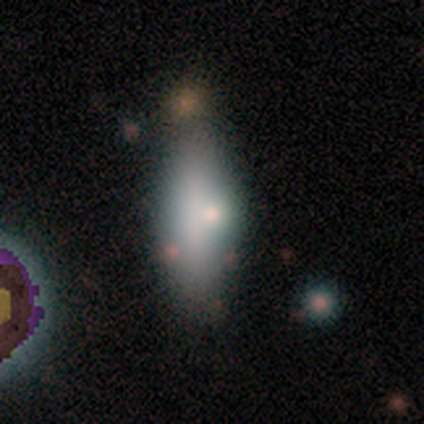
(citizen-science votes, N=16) smooth 75%, featured or disk 19%, star or artifact 6%. Down the decision tree: how rounded — in between (83%); merging — none (60%).